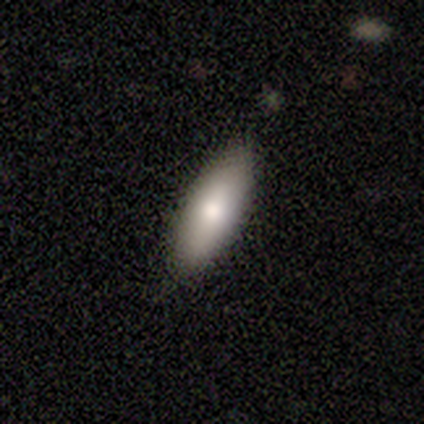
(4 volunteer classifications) This is likely a smooth galaxy (75%). How rounded: likely cigar-shaped (67%). Merging: clearly none (100%).